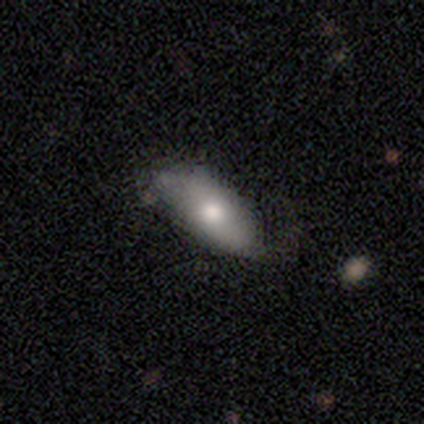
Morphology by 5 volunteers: Volunteers were most divided on "merging": minor disturbance: 50%, none: 25%, merger: 25%, major disturbance: 0%. More confident: how rounded — in between (100%); smooth or featured — smooth (60%).